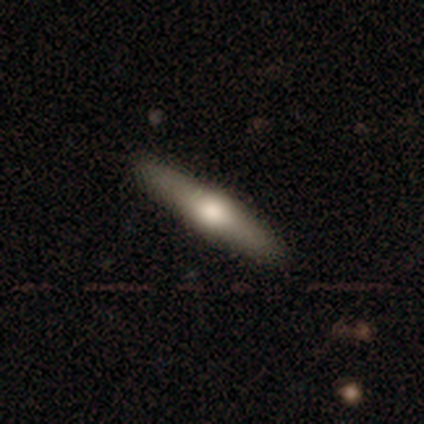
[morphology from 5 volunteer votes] Smooth or featured? 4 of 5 (80%) said smooth. How rounded? 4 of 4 (100%) said cigar-shaped. Merging? 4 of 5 (80%) said none.